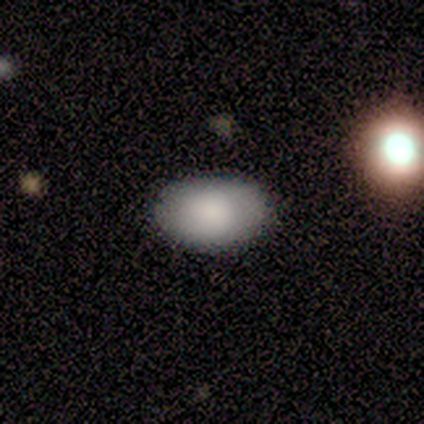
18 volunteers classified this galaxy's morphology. Q: Smooth or featured?
A: smooth (94%); runner-up: featured or disk (6%)
Q: How rounded?
A: in between (94%); runner-up: round (6%)
Q: Merging?
A: none (83%); runner-up: minor disturbance (17%)